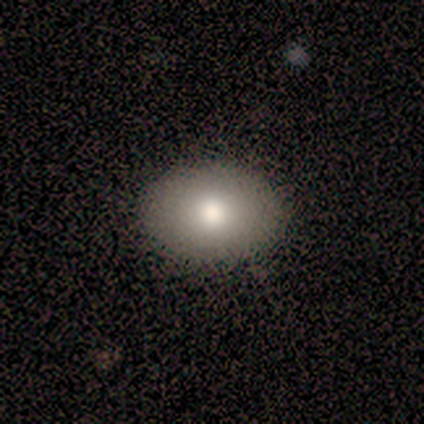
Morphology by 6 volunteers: Smooth or featured? smooth (67%)
How rounded? in between (75%)
Merging? none (100%)